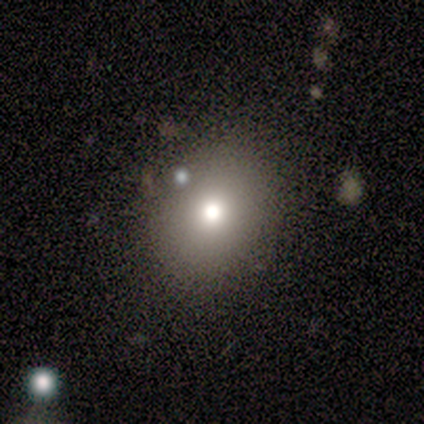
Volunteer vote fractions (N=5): Morphology: type=smooth (60%); roundness=round (67%); merging=none (80%).